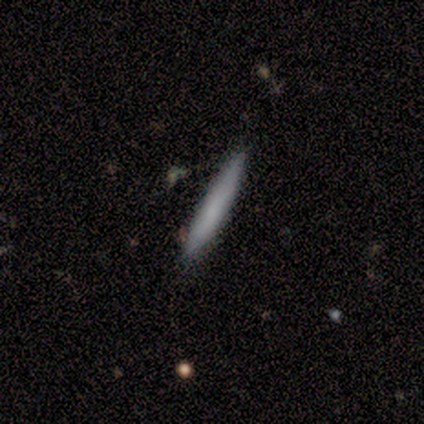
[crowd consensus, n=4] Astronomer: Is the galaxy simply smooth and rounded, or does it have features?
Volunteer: smooth — 100%.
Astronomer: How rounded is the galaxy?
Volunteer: cigar-shaped — 100%.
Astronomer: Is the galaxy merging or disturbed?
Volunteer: none — 100%.